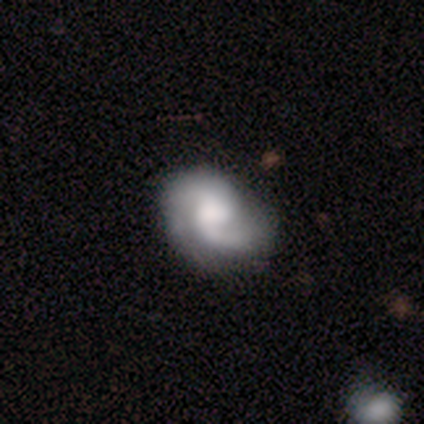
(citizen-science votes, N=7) This appears to be a featured or disk galaxy (86%) with a weak bar (83%), 2 (100%) medium (50%, tied with loose) spiral arms (100%) and a moderate central bulge (50%). Merging: none (71%).